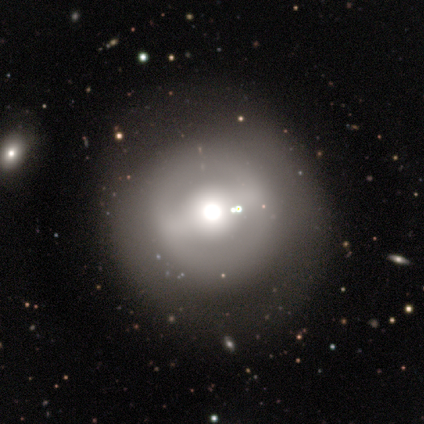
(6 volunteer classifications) Q: Smooth or featured?
A: featured or disk (50%); runner-up: smooth (33%)
Q: Edge-on disk?
A: no (100%)
Q: Bar?
A: strong (33%); tied with: weak (33%); no (33%)
Q: Spiral arms?
A: no (100%)
Q: Bulge size?
A: moderate (100%)
Q: Merging?
A: none (100%)